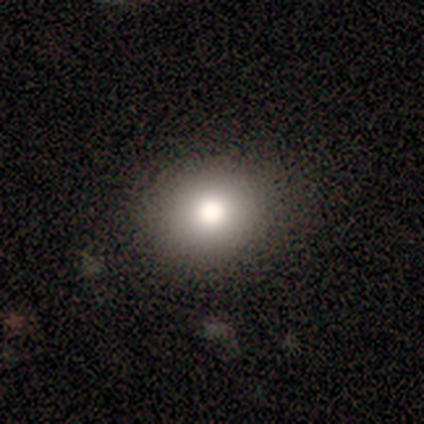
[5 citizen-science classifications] Morphology: type=smooth (100%); roundness=round (60%); merging=none (80%).